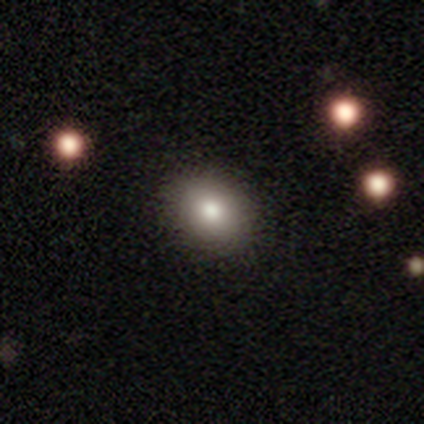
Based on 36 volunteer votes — smooth-or-featured: smooth: 86% | featured or disk: 11% | star or artifact: 3%
  how-rounded: in between: 65% | round: 35% | cigar-shaped: 0%
  merging: none: 91% | minor disturbance: 6% | major disturbance: 3% | merger: 0%